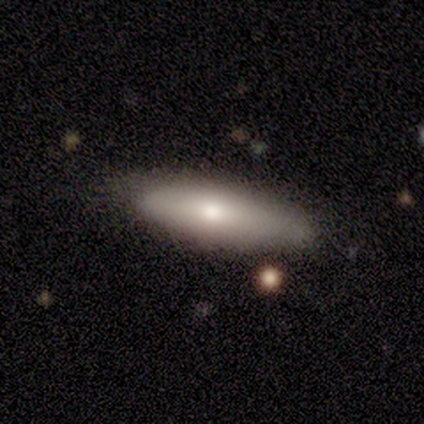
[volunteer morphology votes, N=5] Smooth or featured: smooth — 80% (featured or disk — 20%)
How rounded: in between — 50% (tied with cigar-shaped — 50%)
Merging: none — 80% (minor disturbance — 20%)